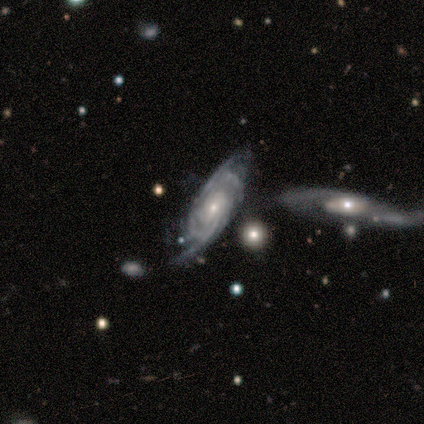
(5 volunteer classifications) This appears to be a featured or disk galaxy (60%) with no bar (67%), 3 (33%, tied with 4 and can't tell) tight (67%) spiral arms (100%) and a small central bulge (100%). Merging: none (40%).